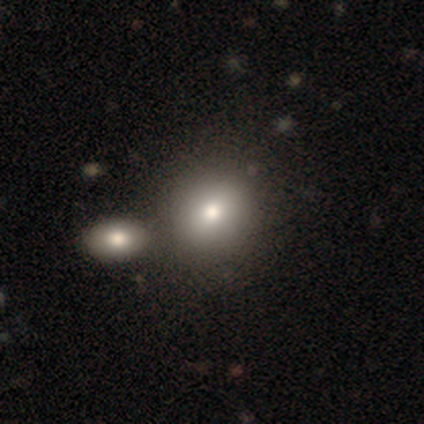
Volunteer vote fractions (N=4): Volunteers were most divided on "merging": none: 50%, minor disturbance: 25%, merger: 25%, major disturbance: 0%. More confident: smooth or featured — smooth (100%); how rounded — round (75%).